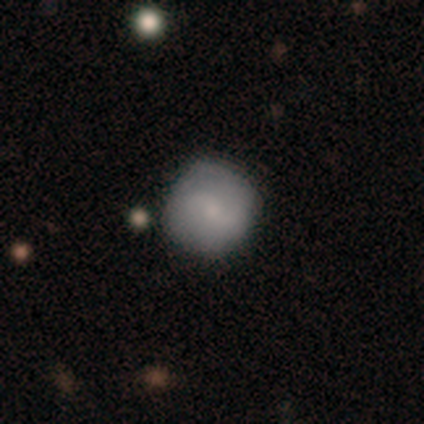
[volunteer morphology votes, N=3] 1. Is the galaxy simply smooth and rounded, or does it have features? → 100% smooth, 0% featured or disk, 0% star or artifact.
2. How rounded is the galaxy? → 100% round, 0% in between, 0% cigar-shaped.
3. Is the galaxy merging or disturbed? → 100% none, 0% minor disturbance, 0% major disturbance, 0% merger.